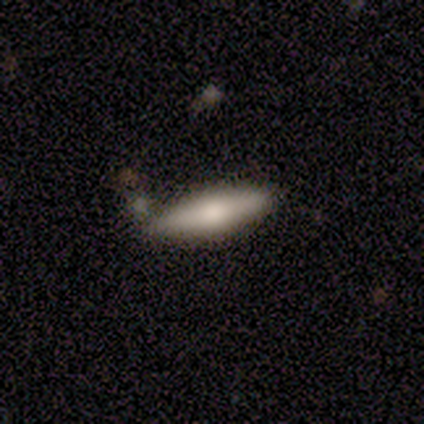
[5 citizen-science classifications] A smooth galaxy with no disk features (100%) that is in between round and cigar-shaped (60%). Merging: none (100%).